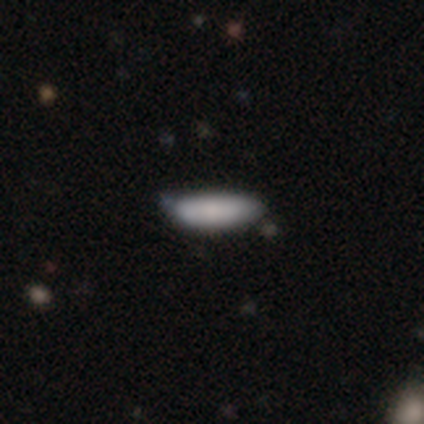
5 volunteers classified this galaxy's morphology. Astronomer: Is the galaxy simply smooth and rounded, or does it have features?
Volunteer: smooth — 100%.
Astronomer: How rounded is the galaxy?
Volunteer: cigar-shaped — 60% (runner-up: in between, 40%).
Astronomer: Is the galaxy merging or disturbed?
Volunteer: none — 80%.